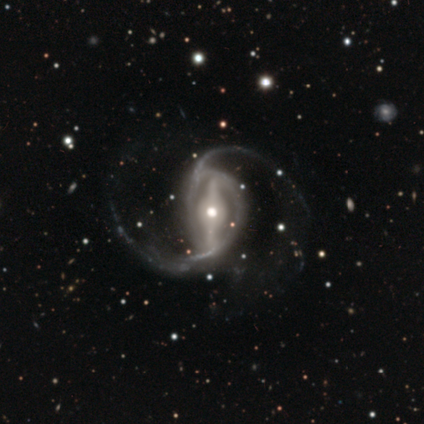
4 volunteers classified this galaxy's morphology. Volunteers were most divided on "merging" (2-way tie): none: 50%, minor disturbance: 50%, major disturbance: 0%, merger: 0%. More confident: smooth or featured — featured or disk (100%); edge-on disk — no (100%); spiral arms — yes (100%); spiral arm count — 2 (100%); bulge size — moderate (100%); bar — strong (75%); spiral winding — loose (50%).